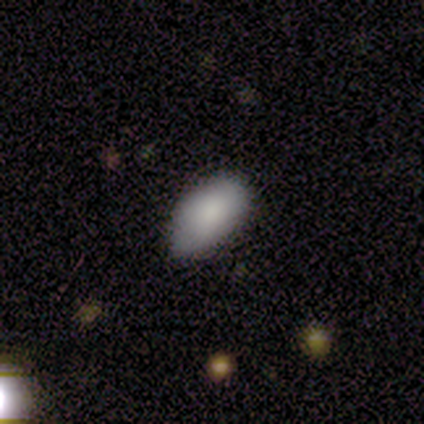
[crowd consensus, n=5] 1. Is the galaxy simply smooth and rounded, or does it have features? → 80% smooth, 20% star or artifact, 0% featured or disk.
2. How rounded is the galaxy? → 100% in between, 0% round, 0% cigar-shaped.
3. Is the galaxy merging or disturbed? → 50% none (tied), 50% minor disturbance (tied), 0% major disturbance, 0% merger.